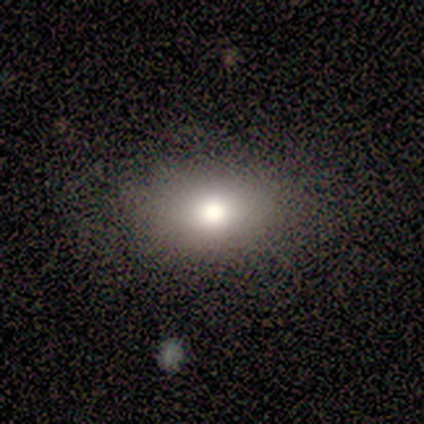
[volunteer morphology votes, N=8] smooth-or-featured: smooth: 75% | featured or disk: 12% | star or artifact: 12%
  how-rounded: round: 67% | in between: 33% | cigar-shaped: 0%
  merging: none: 100% | minor disturbance: 0% | major disturbance: 0% | merger: 0%